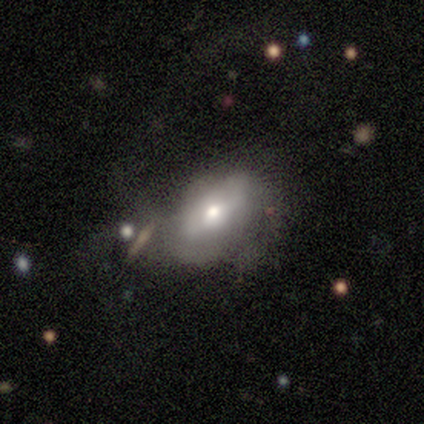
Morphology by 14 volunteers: Q: Smooth or featured?
A: featured or disk (71%); runner-up: smooth (29%)
Q: Edge-on disk?
A: no (80%); runner-up: yes (20%)
Q: Bar?
A: no (88%); runner-up: weak (12%)
Q: Spiral arms?
A: no (75%); runner-up: yes (25%)
Q: Bulge size?
A: moderate (75%); runner-up: large (12%)
Q: Merging?
A: none (43%); runner-up: minor disturbance (36%)